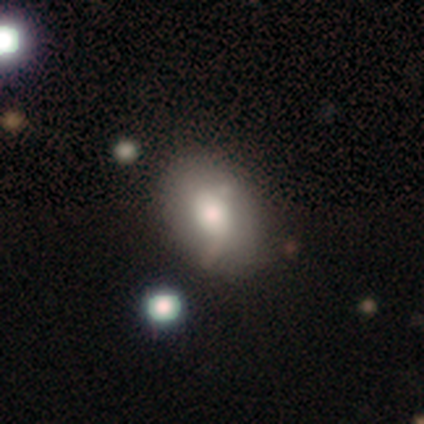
Morphology: type=smooth (50%, tied with featured or disk); roundness=in between (100%); merging=minor disturbance (75%).